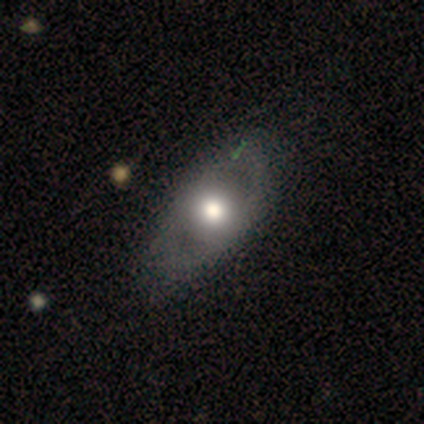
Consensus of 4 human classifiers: A smooth galaxy with no disk features (75%) that is in between round and cigar-shaped (100%). Merging: none (75%).